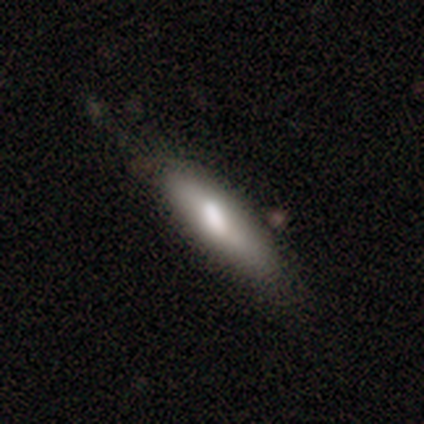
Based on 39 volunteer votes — Smooth or featured? smooth (67%)
How rounded? cigar-shaped (54%)
Merging? none (47%)